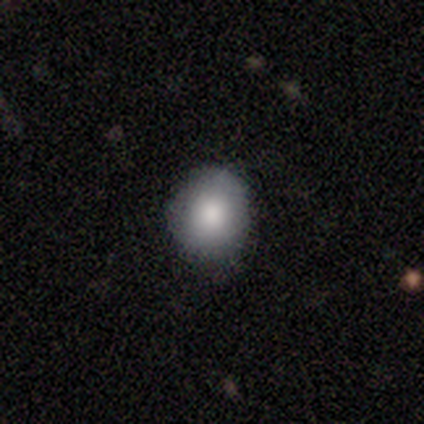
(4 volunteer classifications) Smooth or featured?
  - smooth: 75% *
  - star or artifact: 25%
  - featured or disk: 0%
How rounded?
  - round: 100% *
  - in between: 0%
  - cigar-shaped: 0%
Merging?
  - none: 100% *
  - minor disturbance: 0%
  - major disturbance: 0%
  - merger: 0%